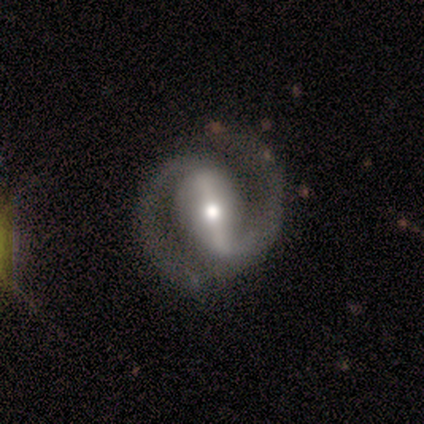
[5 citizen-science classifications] smooth_or_featured: featured or disk (p=1.00)
disk_edge_on: no (p=1.00)
bar: strong (p=0.80) [alt: weak p=0.20]
has_spiral_arms: yes (p=1.00)
spiral_winding: medium (p=0.60) [alt: tight p=0.40]
spiral_arm_count: 2 (p=1.00)
bulge_size: large (p=0.40) [tied with: moderate p=0.40]
merging: none (p=1.00)